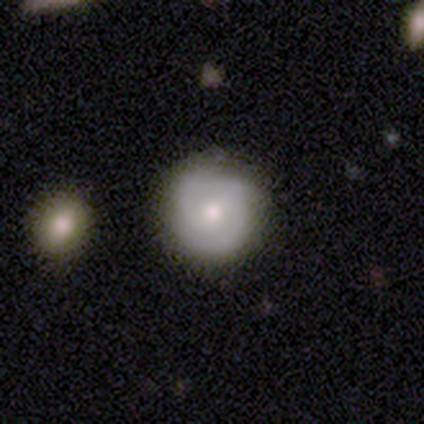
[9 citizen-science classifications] Volunteers were most divided on "spiral winding" (2-way tie): tight: 50%, medium: 50%, loose: 0%. Remaining: edge-on disk — no (100%); spiral arms — yes (100%); bar — no (75%); spiral arm count — 2 (75%); bulge size — small (75%); merging — none (57%); smooth or featured — featured or disk (44%).